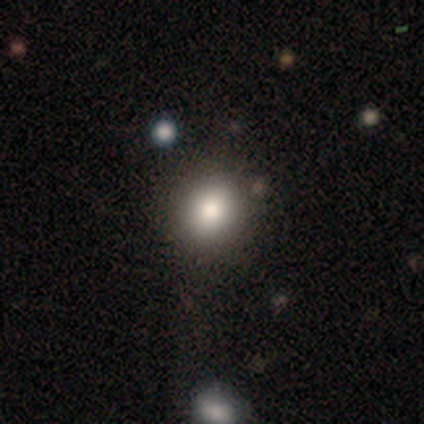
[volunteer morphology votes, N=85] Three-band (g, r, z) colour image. It shows a smooth galaxy with no disk features (80%) that is round (85%). Merging: none (89%).